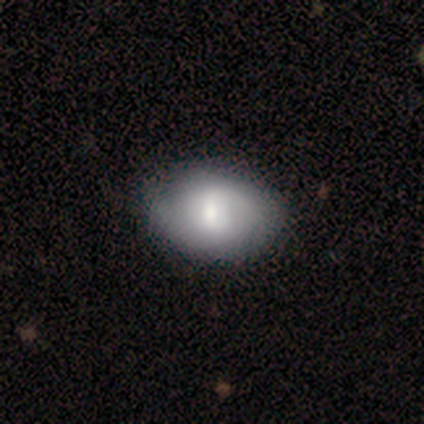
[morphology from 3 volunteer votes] Volunteers were most divided on "merging": none: 67%, minor disturbance: 33%, major disturbance: 0%, merger: 0%. More confident: smooth or featured — smooth (100%); how rounded — round (100%).